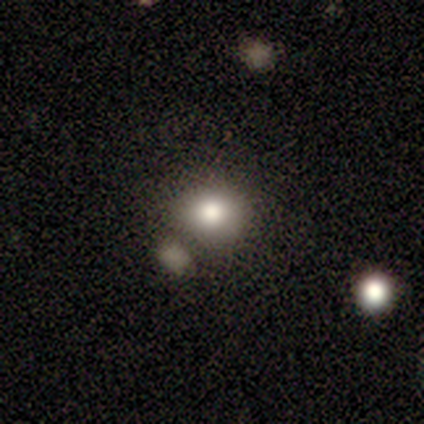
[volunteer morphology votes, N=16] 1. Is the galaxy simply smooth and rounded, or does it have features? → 69% smooth, 25% star or artifact, 6% featured or disk.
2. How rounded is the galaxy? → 64% round, 36% in between, 0% cigar-shaped.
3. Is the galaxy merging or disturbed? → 58% none, 33% minor disturbance, 8% merger, 0% major disturbance.